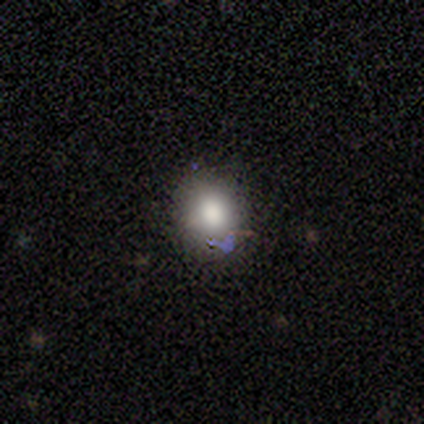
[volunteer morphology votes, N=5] smooth 60%, featured or disk 20%, star or artifact 20%. Down the decision tree: how rounded — round (100%); merging — none (75%).